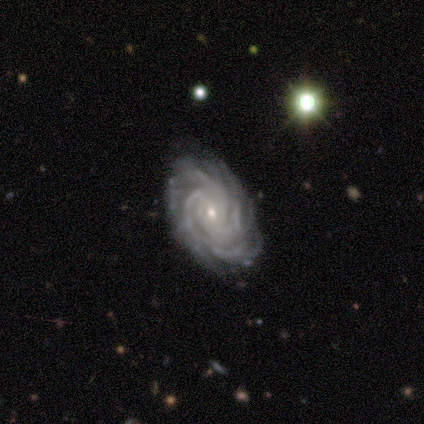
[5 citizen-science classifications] Overall: featured or disk (100%). Edge-on disk: no (100%). Bar: no (80%). Spiral arms: yes (100%). Spiral arm count: more than 4 (40%; 3 20%). Spiral winding: tight (80%). Bulge size: small (60%; moderate 40%). Merging: none (80%).